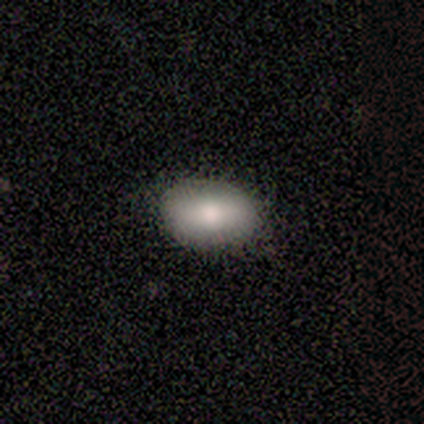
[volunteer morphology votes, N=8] Smooth or featured? 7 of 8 (88%) said smooth. How rounded? 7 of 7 (100%) said in between. Merging? 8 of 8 (100%) said none.